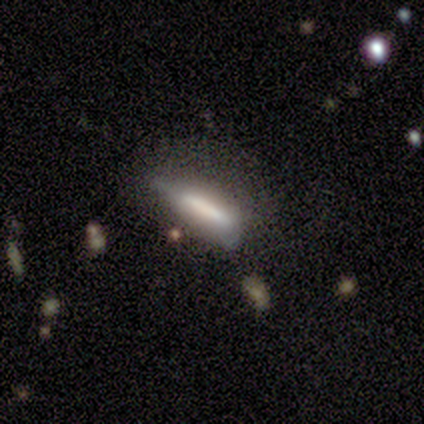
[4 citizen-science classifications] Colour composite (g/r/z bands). It shows a featured or disk galaxy (75%) viewed edge-on (67%) with a boxy central bulge (100%). Merging: minor disturbance (50%).